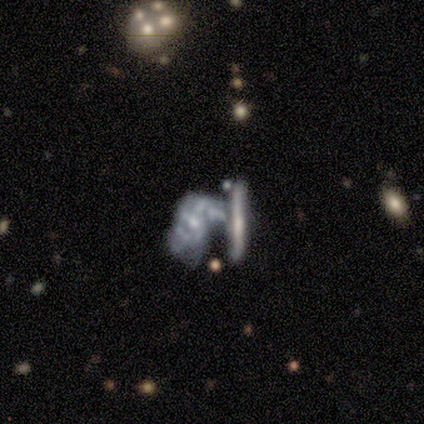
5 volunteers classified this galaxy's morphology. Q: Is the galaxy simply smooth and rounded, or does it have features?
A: featured or disk — 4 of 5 (80%).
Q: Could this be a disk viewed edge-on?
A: no — 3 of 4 (75%).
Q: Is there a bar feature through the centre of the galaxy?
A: no — 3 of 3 (100%).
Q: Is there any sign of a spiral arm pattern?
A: yes — 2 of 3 (67%).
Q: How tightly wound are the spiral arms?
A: tight — 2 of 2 (100%).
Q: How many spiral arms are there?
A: can't tell — 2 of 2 (100%).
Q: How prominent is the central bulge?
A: small — 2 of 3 (67%).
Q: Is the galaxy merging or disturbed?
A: major disturbance — 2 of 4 (50%, tied with merger).